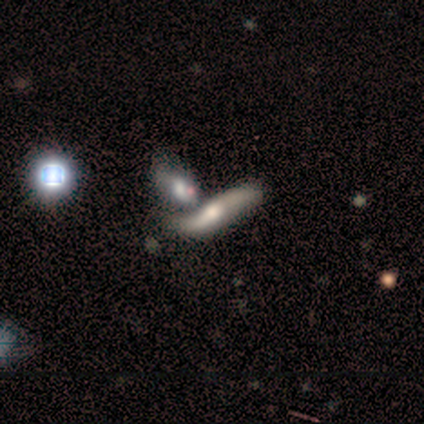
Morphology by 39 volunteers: Overall: featured or disk (69%). Edge-on disk: no (59%; yes 41%). Bar: no (62%; weak 31%). Spiral arms: yes (81%). Spiral arm count: 2 (100%). Spiral winding: loose (100%). Bulge size: moderate (69%). Merging: merger (58%; none 26%).